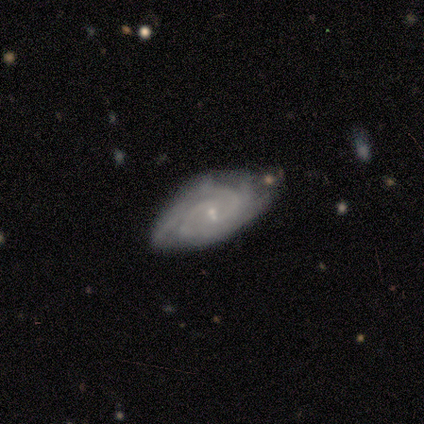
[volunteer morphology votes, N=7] A featured or disk galaxy (100%) with no bar (71%), 2 (29%, tied with 3 and can't tell) tight (71%) spiral arms (100%) and a small central bulge (86%). Merging: none (71%).